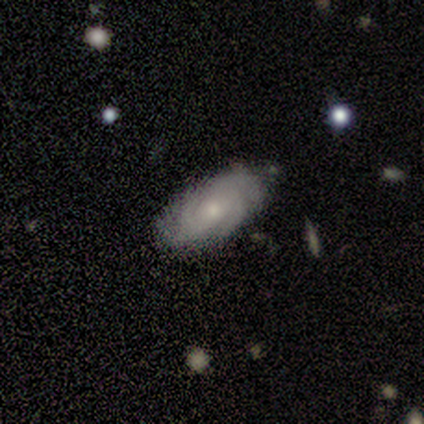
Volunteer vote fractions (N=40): Smooth or featured?
  - featured or disk: 78% *
  - smooth: 22%
  - star or artifact: 0%
Edge-on disk?
  - no: 100% *
  - yes: 0%
Bar?
  - no: 77% *
  - weak: 23%
  - strong: 0%
Spiral arms?
  - yes: 100% *
  - no: 0%
Spiral winding?
  - tight: 65% *
  - medium: 29%
  - loose: 6%
Spiral arm count?
  - 4: 52% *
  - can't tell: 26%
  - 2: 13%
  - 3: 6%
  - 1: 3%
  - more than 4: 0%
Bulge size?
  - small: 52% *
  - moderate: 42%
  - large: 3%
  - none: 3%
  - dominant: 0%
Merging?
  - none: 75% *
  - minor disturbance: 15%
  - major disturbance: 8%
  - merger: 2%